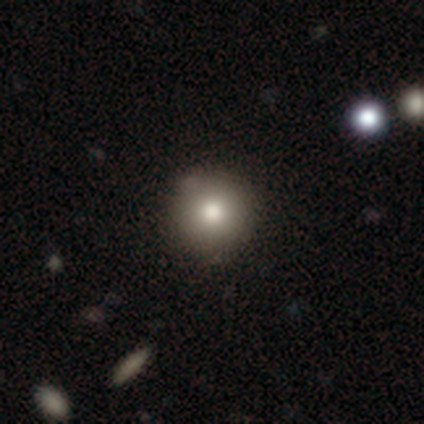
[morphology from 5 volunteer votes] smooth 60%, star or artifact 40%, featured or disk 0%. Down the decision tree: how rounded — round (100%); merging — none (100%).